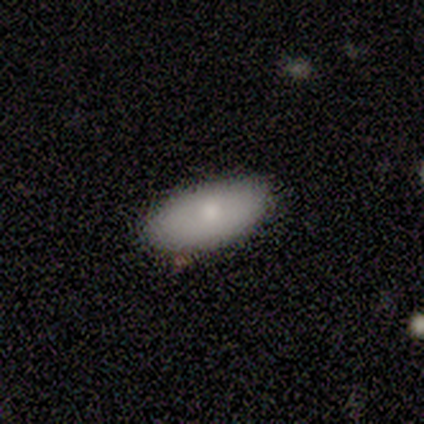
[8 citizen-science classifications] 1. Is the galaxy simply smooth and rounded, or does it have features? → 100% smooth, 0% featured or disk, 0% star or artifact.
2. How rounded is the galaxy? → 100% in between, 0% round, 0% cigar-shaped.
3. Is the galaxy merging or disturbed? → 100% none, 0% minor disturbance, 0% major disturbance, 0% merger.